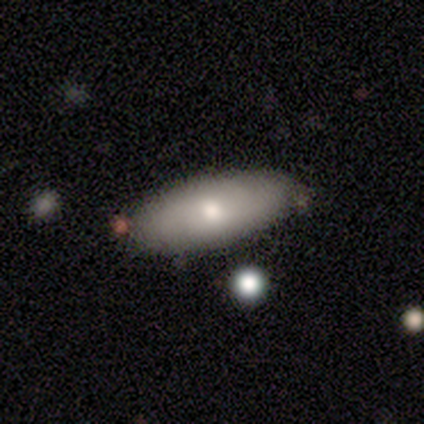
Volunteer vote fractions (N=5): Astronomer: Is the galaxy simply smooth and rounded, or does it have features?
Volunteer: smooth — 60%.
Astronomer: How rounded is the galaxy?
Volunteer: in between — 67%.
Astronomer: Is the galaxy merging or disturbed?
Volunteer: none — 100%.